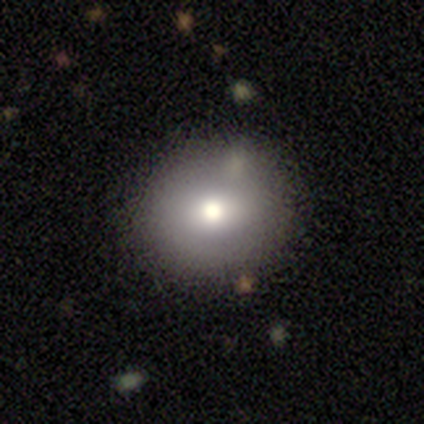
Smooth or featured? smooth (68%)
How rounded? round (85%)
Merging? none (89%)